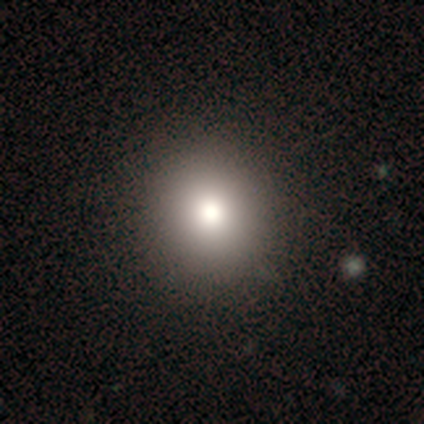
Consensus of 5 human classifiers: Overall: smooth (60%; featured or disk 20%). How rounded: round (100%). Merging: none (100%).